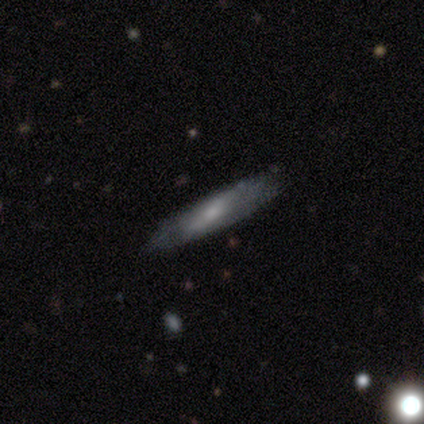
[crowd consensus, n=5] Volunteers were most divided on "bar" (2-way tie): strong: 50%, weak: 50%, no: 0%; "bulge size" (2-way tie): moderate: 50%, none: 50%, dominant: 0%, large: 0%, small: 0%. More confident: spiral arms — no (100%); merging — none (80%); edge-on disk — no (67%); smooth or featured — featured or disk (60%).